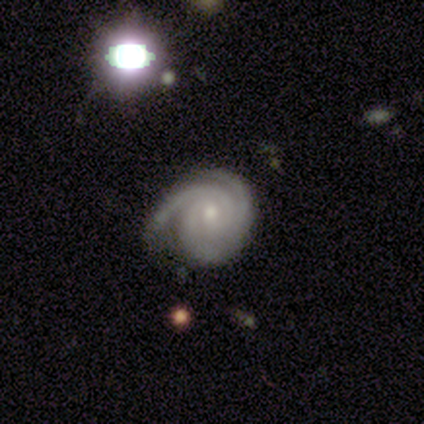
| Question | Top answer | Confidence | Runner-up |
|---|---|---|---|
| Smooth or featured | featured or disk | 100% | — |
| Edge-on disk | no | 100% | — |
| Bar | weak | 60% | no (40%) |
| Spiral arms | yes | 100% | — |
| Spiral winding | tight | 80% | medium (20%) |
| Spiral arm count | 2 | 40% | tied: 3 (40%) |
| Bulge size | moderate | 60% | small (40%) |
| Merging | minor disturbance | 60% | none (20%) |